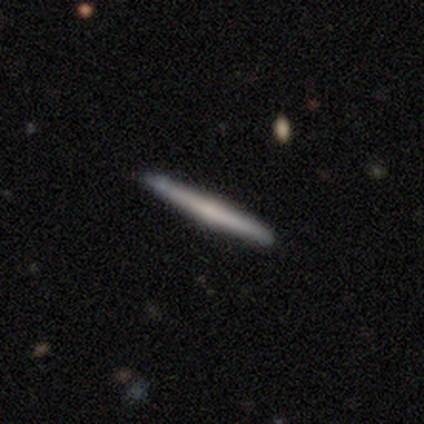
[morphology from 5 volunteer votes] A smooth galaxy with no disk features (60%) that is cigar-shaped (100%).

Vote fractions:
- Smooth or featured? smooth: 60% / featured or disk: 40% / star or artifact: 0%
- How rounded? cigar-shaped: 100% / round: 0% / in between: 0%
- Merging? none: 100% / minor disturbance: 0% / major disturbance: 0% / merger: 0%